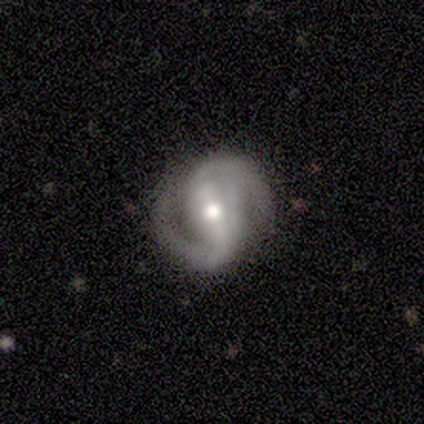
A featured or disk galaxy (88%) with a strong bar (86%), 2 (97%) medium (77%) spiral arms (100%) and a moderate central bulge (74%). Merging: none (87%).